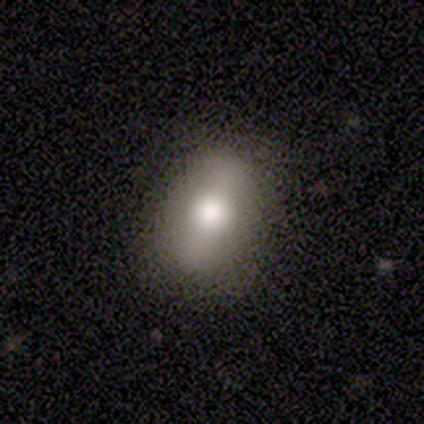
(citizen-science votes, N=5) This is likely a smooth galaxy (60%). How rounded: clearly in between (100%). Merging: clearly none (100%).